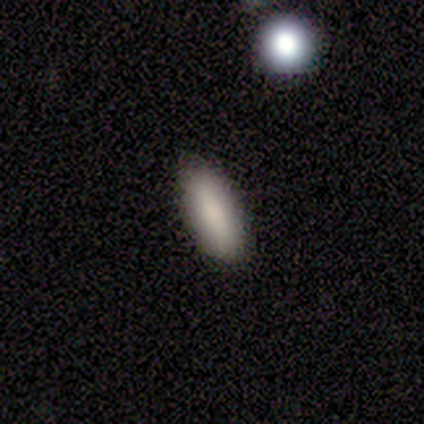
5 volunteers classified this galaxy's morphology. Smooth or featured? 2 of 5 (40%, tied with star or artifact) said smooth. How rounded? 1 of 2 (50%, tied with cigar-shaped) said in between. Merging? 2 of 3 (67%) said none.